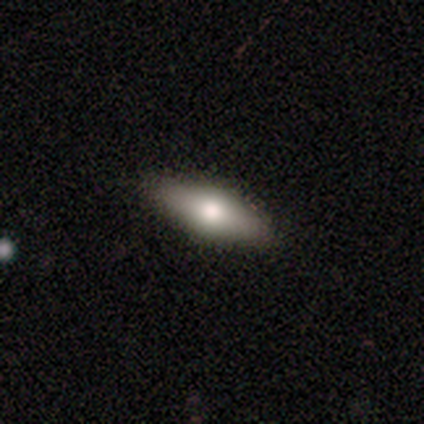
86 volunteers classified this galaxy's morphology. Smooth or featured? smooth (55%)
How rounded? in between (55%)
Merging? none (91%)